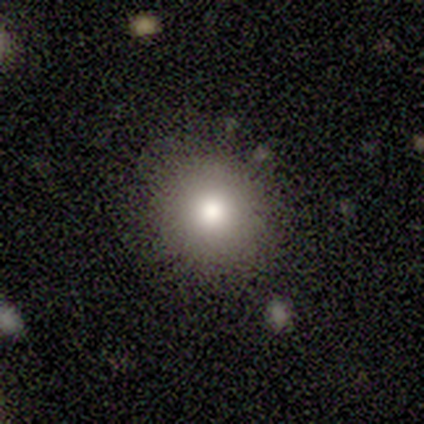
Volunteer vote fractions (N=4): Smooth or featured?
  - smooth: 50% * (tied)
  - featured or disk: 50% * (tied)
  - star or artifact: 0%
How rounded?
  - round: 100% *
  - in between: 0%
  - cigar-shaped: 0%
Merging?
  - none: 100% *
  - minor disturbance: 0%
  - major disturbance: 0%
  - merger: 0%